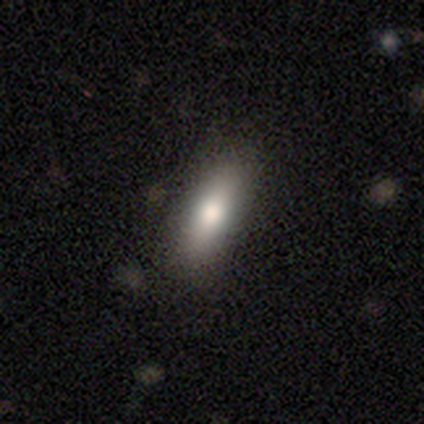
Smooth or featured: smooth — 75% (featured or disk — 19%)
How rounded: in between — 58% (cigar-shaped — 41%)
Merging: none — 90% (minor disturbance — 7%)